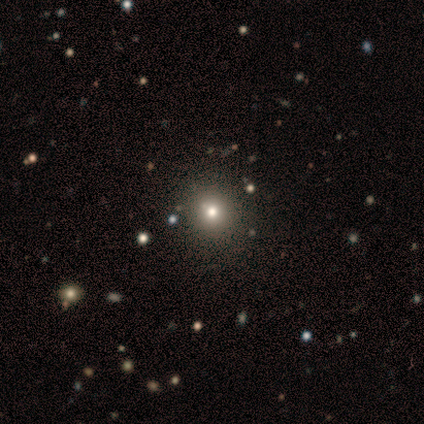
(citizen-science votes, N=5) A smooth galaxy with no disk features (80%) that is round (100%). Merging: none (100%).